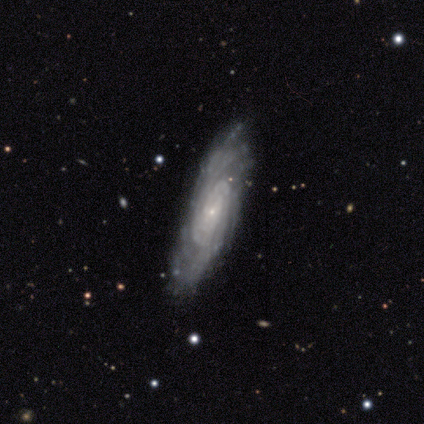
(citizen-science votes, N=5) Overall: featured or disk (100%). Edge-on disk: no (100%). Bar: no (80%). Spiral arms: yes (100%). Spiral arm count: more than 4 (40%, tied with can't tell). Spiral winding: tight (80%). Bulge size: small (100%). Merging: none (100%).